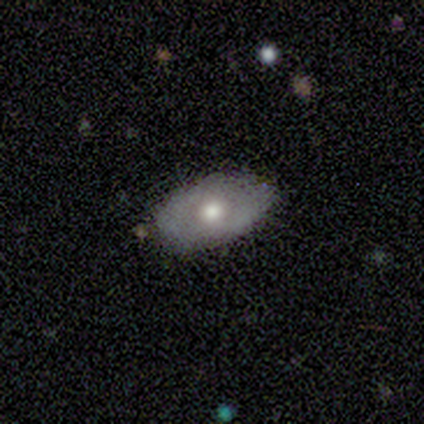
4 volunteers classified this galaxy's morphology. Smooth or featured? smooth (75%)
How rounded? in between (100%)
Merging? none (67%)